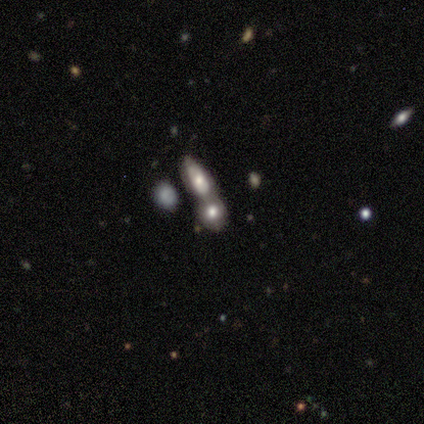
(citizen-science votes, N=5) Q: Smooth or featured?
A: featured or disk (60%); runner-up: smooth (40%)
Q: Edge-on disk?
A: yes (67%); runner-up: no (33%)
Q: Edge-on bulge?
A: rounded (100%)
Q: Merging?
A: merger (80%); runner-up: minor disturbance (20%)